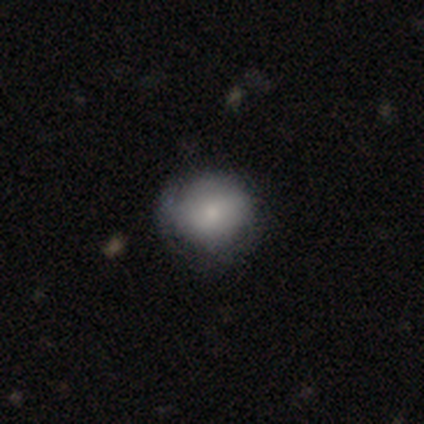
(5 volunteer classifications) smooth 60%, featured or disk 40%, star or artifact 0%. Down the decision tree: how rounded — round (67%); merging — none (60%).